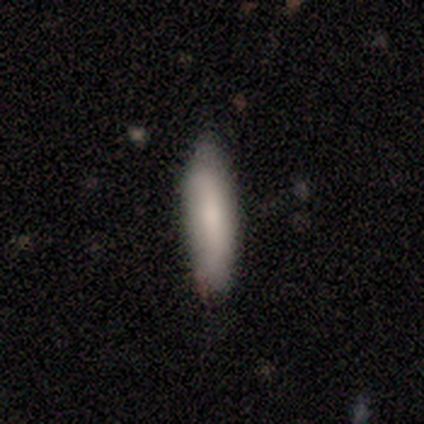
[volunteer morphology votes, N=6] smooth_or_featured: smooth (p=1.00)
how_rounded: cigar-shaped (p=0.67) [alt: in between p=0.33]
merging: none (p=0.83) [alt: minor disturbance p=0.17]